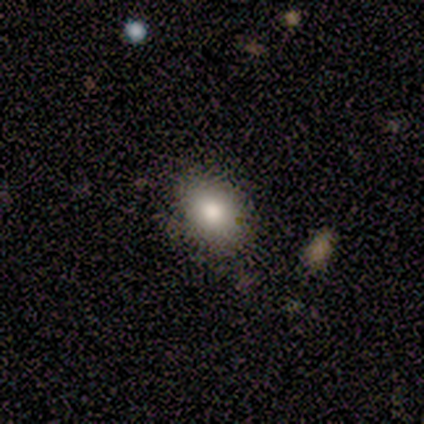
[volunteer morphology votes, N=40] Volunteers were most divided on "how rounded": in between: 79%, round: 21%, cigar-shaped: 0%. More confident: merging — none (89%); smooth or featured — smooth (82%).